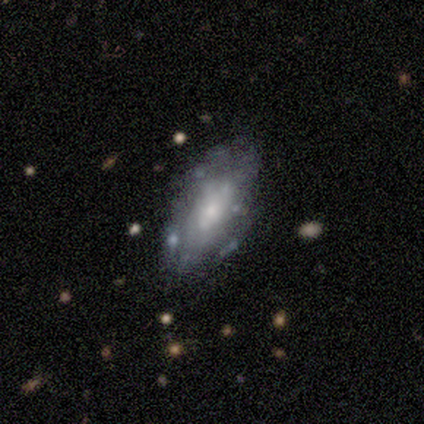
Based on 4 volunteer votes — Smooth or featured: smooth — 75% (featured or disk — 25%)
How rounded: in between — 100%
Merging: none — 75% (minor disturbance — 25%)